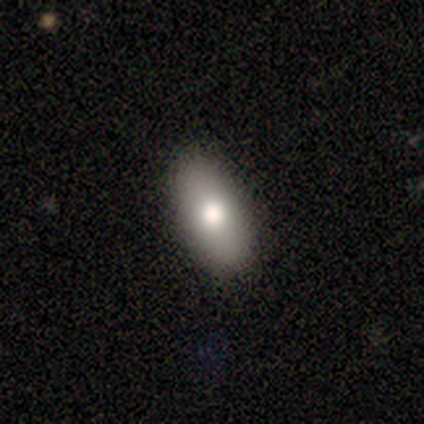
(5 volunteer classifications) Morphology: type=smooth (100%); roundness=in between (80%); merging=none (100%).